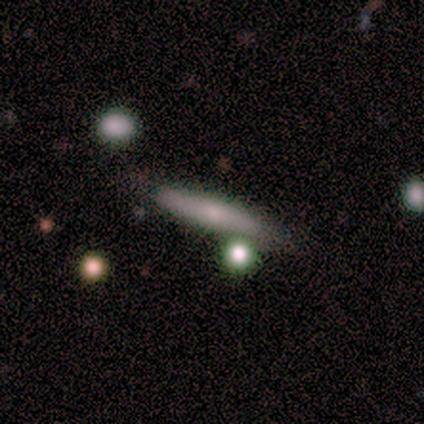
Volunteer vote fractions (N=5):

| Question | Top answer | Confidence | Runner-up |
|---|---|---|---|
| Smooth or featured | featured or disk | 60% | smooth (40%) |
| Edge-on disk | yes | 67% | no (33%) |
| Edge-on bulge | none | 50% | tied: rounded (50%) |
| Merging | none | 80% | minor disturbance (20%) |